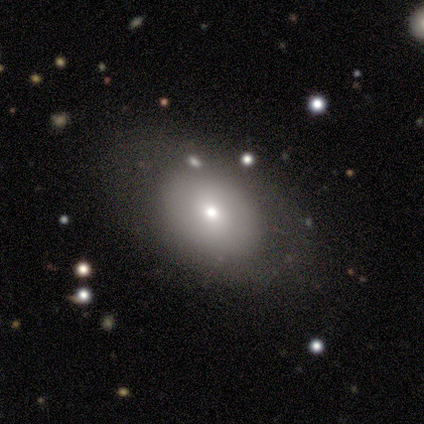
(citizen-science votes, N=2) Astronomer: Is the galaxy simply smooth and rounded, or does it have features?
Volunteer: smooth — 50%, tied with star or artifact at 50%.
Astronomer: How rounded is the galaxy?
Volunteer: in between — 100%.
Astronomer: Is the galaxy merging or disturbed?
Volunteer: none — 100%.